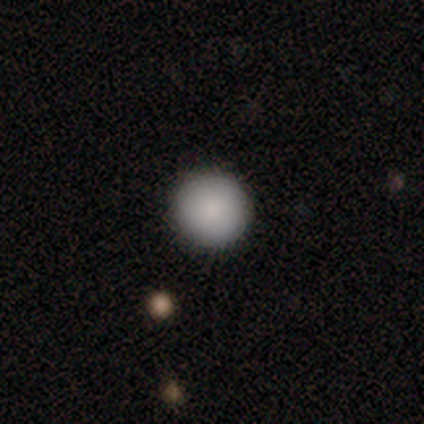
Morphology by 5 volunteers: A smooth galaxy with no disk features (100%) that is round (100%).

Vote fractions:
- Smooth or featured? smooth: 100% / featured or disk: 0% / star or artifact: 0%
- How rounded? round: 100% / in between: 0% / cigar-shaped: 0%
- Merging? none: 100% / minor disturbance: 0% / major disturbance: 0% / merger: 0%